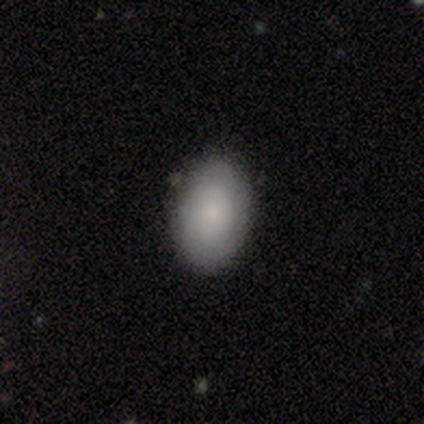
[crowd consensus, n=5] smooth-or-featured: smooth: 60% | featured or disk: 40% | star or artifact: 0%
  how-rounded: in between: 100% | round: 0% | cigar-shaped: 0%
  merging: none: 100% | minor disturbance: 0% | major disturbance: 0% | merger: 0%